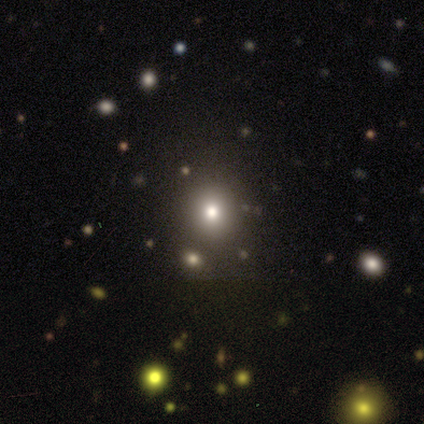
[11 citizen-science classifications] Smooth or featured: star or artifact — 55% (smooth — 45%)